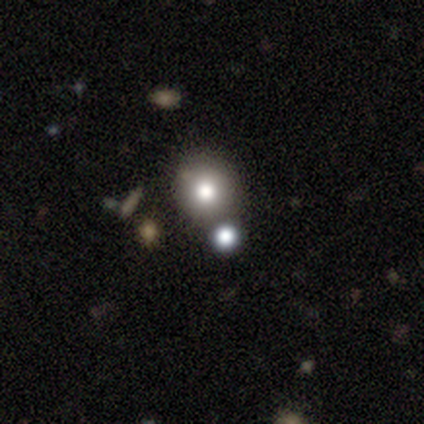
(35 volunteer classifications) Overall: smooth (89%). How rounded: round (94%). Merging: merger (56%).